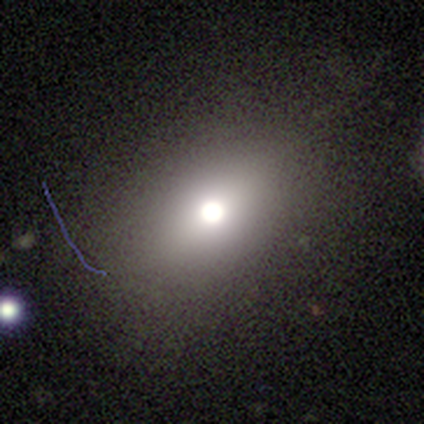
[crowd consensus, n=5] smooth_or_featured: smooth (p=0.60) [alt: featured or disk p=0.20]
how_rounded: round (p=0.67) [alt: in between p=0.33]
merging: none (p=1.00)